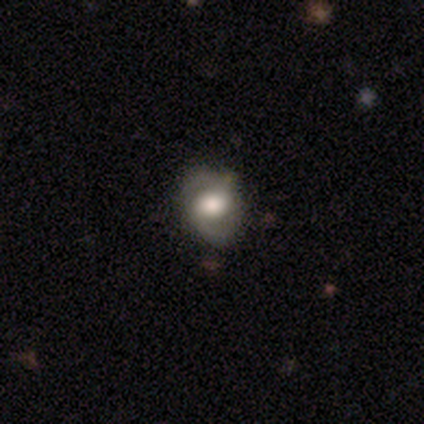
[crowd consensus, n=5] A featured or disk galaxy (60%) with no bar (67%), 2 (67%) tight (67%) spiral arms (100%) and a large central bulge (33%, tied with moderate and none).

Vote fractions:
- Smooth or featured? featured or disk: 60% / smooth: 40% / star or artifact: 0%
- Edge-on disk? no: 100% / yes: 0%
- Bar? no: 67% / weak: 33% / strong: 0%
- Spiral arms? yes: 100% / no: 0%
- Spiral winding? tight: 67% / loose: 33% / medium: 0%
- Spiral arm count? 2: 67% / can't tell: 33% / 1: 0% / 3: 0% / 4: 0% / more than 4: 0%
- Bulge size? large: 33% (tied) / moderate: 33% (tied) / none: 33% (tied) / dominant: 0% / small: 0%
- Merging? none: 80% / minor disturbance: 20% / major disturbance: 0% / merger: 0%